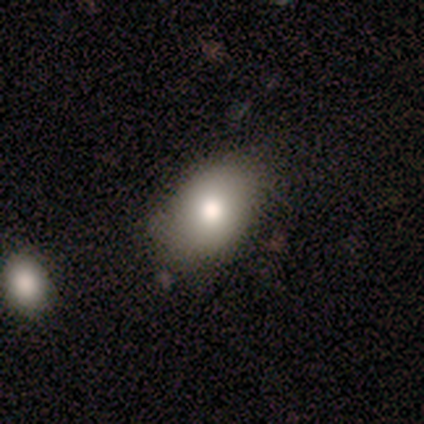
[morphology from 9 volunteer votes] smooth_or_featured: smooth (p=0.78) [alt: star or artifact p=0.22]
how_rounded: in between (p=0.86) [alt: round p=0.14]
merging: none (p=0.86) [alt: minor disturbance p=0.14]